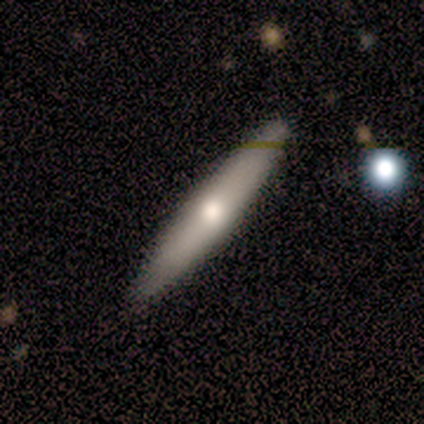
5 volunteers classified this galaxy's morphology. Volunteers were most divided on "smooth or featured" (2-way tie): smooth: 40%, featured or disk: 40%, star or artifact: 20%. More confident: how rounded — cigar-shaped (100%); merging — none (100%).